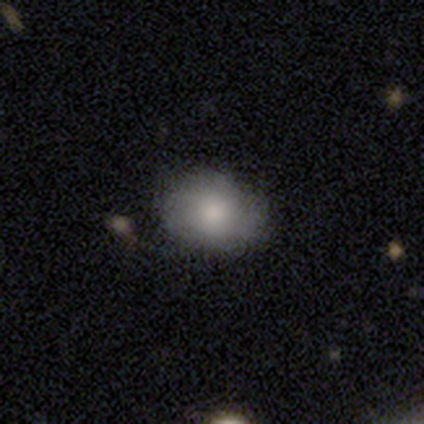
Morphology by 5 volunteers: type=smooth (80%); roundness=round (75%); merging=none (75%).